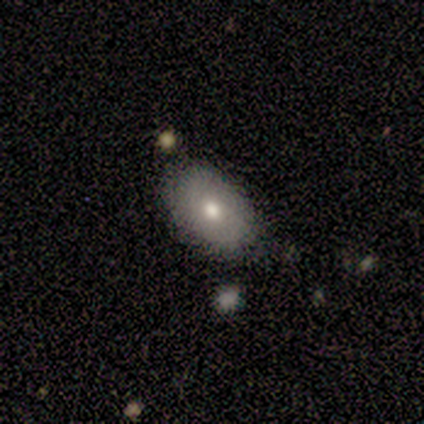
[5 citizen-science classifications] This appears to be a featured or disk galaxy (80%) with no bar (100%), no spiral arms (100%) and a moderate central bulge (67%). Merging: none (80%).